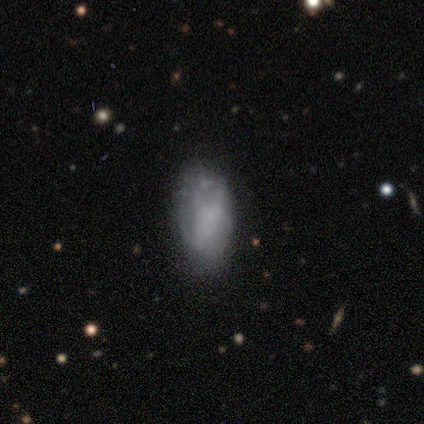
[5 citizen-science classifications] Smooth or featured? smooth (60%)
How rounded? in between (67%)
Merging? none (67%)